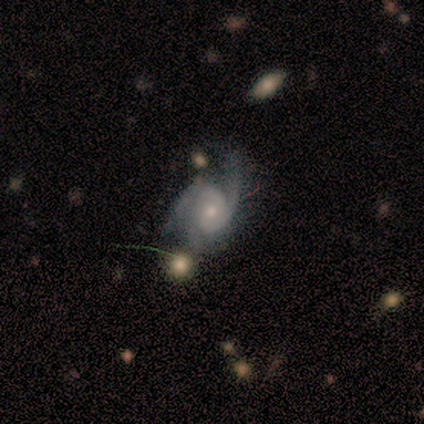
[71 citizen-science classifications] A featured or disk galaxy (85%) with no bar (79%), 3 (48%) medium (48%) spiral arms (97%) and a small central bulge (53%).

Vote fractions:
- Smooth or featured? featured or disk: 85% / smooth: 8% / star or artifact: 7%
- Edge-on disk? no: 97% / yes: 3%
- Bar? no: 79% / weak: 19% / strong: 2%
- Spiral arms? yes: 97% / no: 3%
- Spiral winding? medium: 48% / tight: 38% / loose: 14%
- Spiral arm count? 3: 48% / 2: 43% / can't tell: 9% / 1: 0% / 4: 0% / more than 4: 0%
- Bulge size? small: 53% / moderate: 40% / large: 3% / none: 3% / dominant: 0%
- Merging? none: 35% / minor disturbance: 32% / major disturbance: 24% / merger: 9%